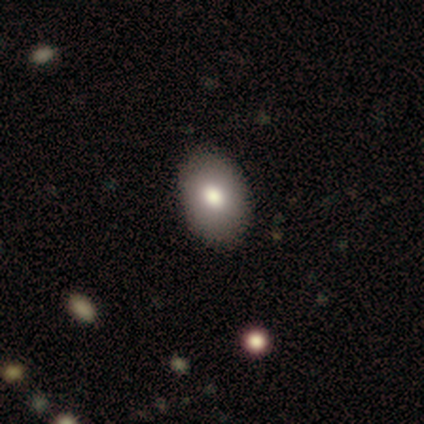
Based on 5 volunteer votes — Volunteers were most divided on "how rounded": in between: 75%, round: 25%, cigar-shaped: 0%. More confident: smooth or featured — smooth (80%); merging — none (75%).